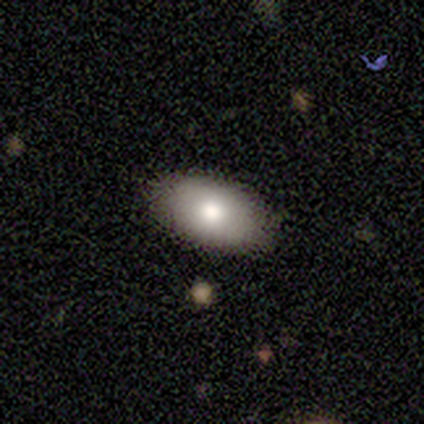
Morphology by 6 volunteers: Smooth or featured? 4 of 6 (67%) said smooth. How rounded? 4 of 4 (100%) said in between. Merging? 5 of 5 (100%) said none.